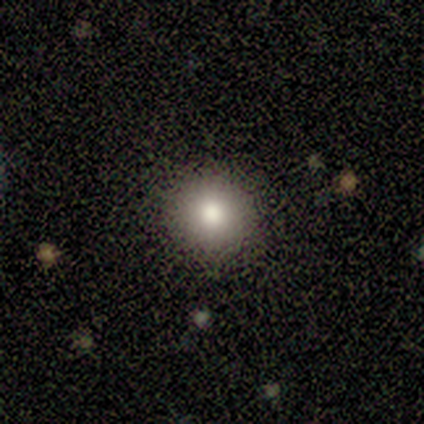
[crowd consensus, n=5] Consensus on every question: smooth or featured — smooth (100%); how rounded — round (100%); merging — none (100%).